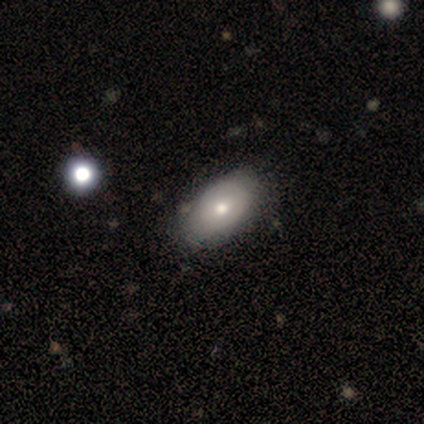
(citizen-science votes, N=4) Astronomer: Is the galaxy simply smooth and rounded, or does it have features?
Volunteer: smooth — 75%.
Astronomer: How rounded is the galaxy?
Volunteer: in between — 100%.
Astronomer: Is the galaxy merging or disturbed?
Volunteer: none — 75%.